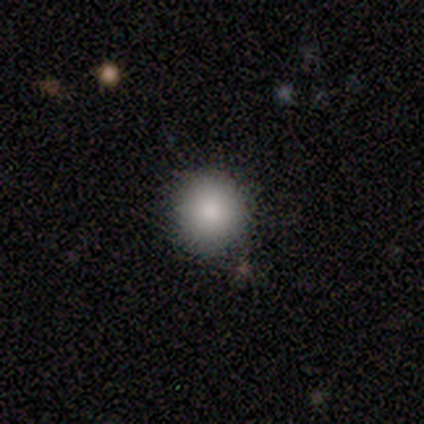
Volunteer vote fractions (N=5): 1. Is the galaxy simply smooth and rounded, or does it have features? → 100% smooth, 0% featured or disk, 0% star or artifact.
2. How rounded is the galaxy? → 80% round, 20% in between, 0% cigar-shaped.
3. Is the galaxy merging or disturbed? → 80% none, 20% major disturbance, 0% minor disturbance, 0% merger.